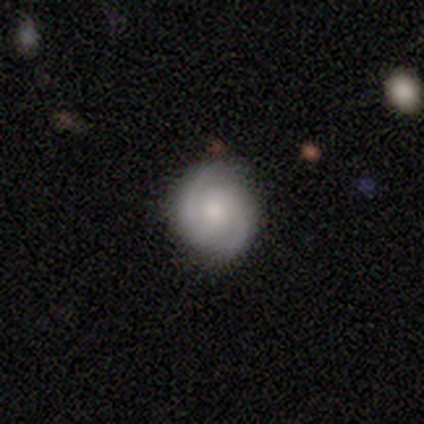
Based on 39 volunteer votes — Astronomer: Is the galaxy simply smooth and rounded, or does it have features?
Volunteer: featured or disk — 77%.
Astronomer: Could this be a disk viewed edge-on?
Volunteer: no — 100%.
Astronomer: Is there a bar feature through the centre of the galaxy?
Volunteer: no — 53% (runner-up: weak, 40%).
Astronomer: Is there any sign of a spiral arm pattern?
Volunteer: yes — 97%.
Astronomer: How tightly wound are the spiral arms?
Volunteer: tight — 59% (runner-up: medium, 34%).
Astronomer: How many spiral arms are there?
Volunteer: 2 — 100%.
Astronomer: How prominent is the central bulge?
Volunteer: small — 37% (runner-up: moderate, 30%).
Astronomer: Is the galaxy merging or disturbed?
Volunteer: none — 84%.